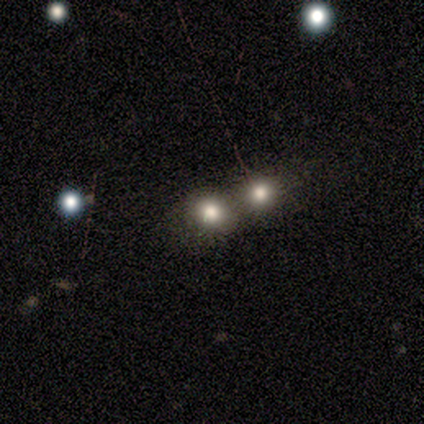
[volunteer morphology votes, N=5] Smooth or featured: smooth — 80% (star or artifact — 20%)
How rounded: round — 100%
Merging: none — 50% (minor disturbance — 25%)